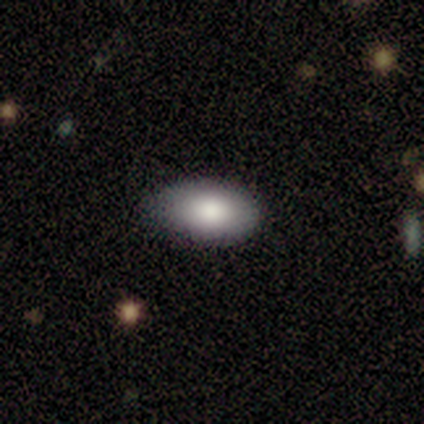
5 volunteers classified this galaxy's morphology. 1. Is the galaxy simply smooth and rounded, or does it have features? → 80% smooth, 20% featured or disk, 0% star or artifact.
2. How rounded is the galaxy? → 100% in between, 0% round, 0% cigar-shaped.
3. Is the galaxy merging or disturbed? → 60% minor disturbance, 40% none, 0% major disturbance, 0% merger.